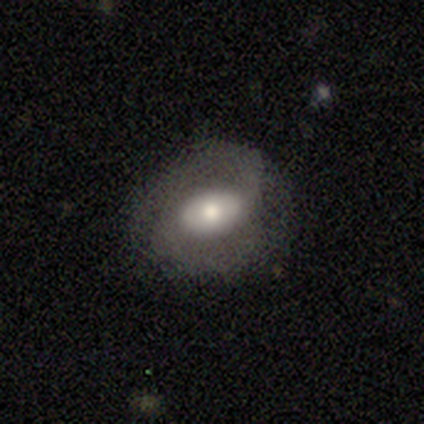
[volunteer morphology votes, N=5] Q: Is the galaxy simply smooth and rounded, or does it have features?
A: featured or disk — 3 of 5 (60%).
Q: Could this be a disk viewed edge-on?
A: no — 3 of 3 (100%).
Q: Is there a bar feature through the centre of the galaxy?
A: strong — 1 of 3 (33%, tied with weak and no).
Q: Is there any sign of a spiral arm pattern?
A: yes — 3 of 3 (100%).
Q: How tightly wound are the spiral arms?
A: tight — 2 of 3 (67%).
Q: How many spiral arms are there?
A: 2 — 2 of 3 (67%).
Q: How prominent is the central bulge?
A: large — 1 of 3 (33%, tied with moderate and small).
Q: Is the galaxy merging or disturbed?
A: none — 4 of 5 (80%).